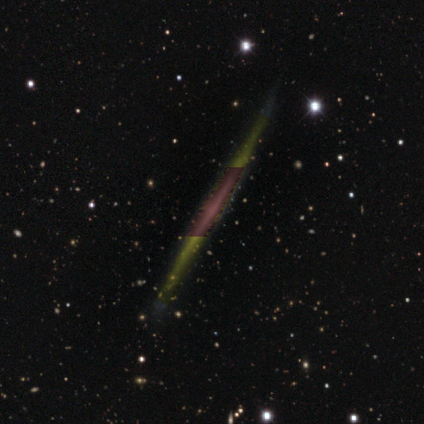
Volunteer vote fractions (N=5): featured or disk 80%, smooth 20%, star or artifact 0%. Down the decision tree: edge-on disk — yes (100%); edge-on bulge — boxy (50%, tied with none); merging — none (100%).